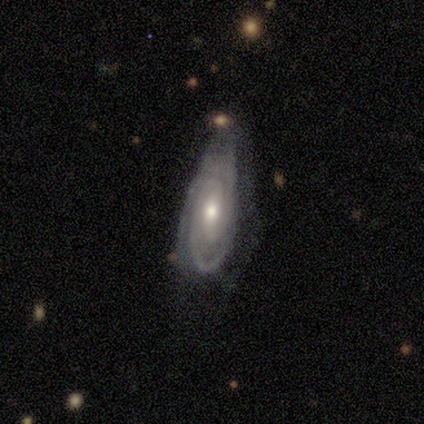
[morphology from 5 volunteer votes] Smooth or featured: featured or disk — 80% (star or artifact — 20%)
Edge-on disk: no — 75% (yes — 25%)
Bar: no — 100%
Spiral arms: yes — 100%
Spiral winding: tight — 67% (medium — 33%)
Spiral arm count: can't tell — 67% (3 — 33%)
Bulge size: moderate — 67% (small — 33%)
Merging: none — 75% (minor disturbance — 25%)